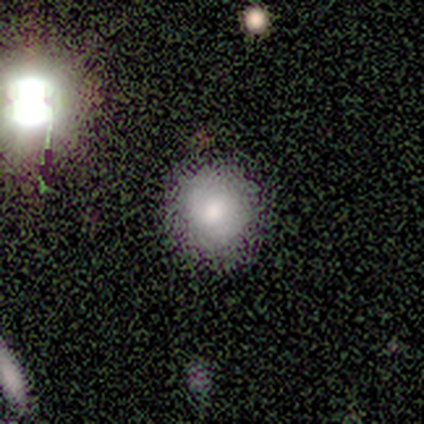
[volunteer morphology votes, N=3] smooth 100%, featured or disk 0%, star or artifact 0%. Down the decision tree: how rounded — round (67%); merging — none (100%).